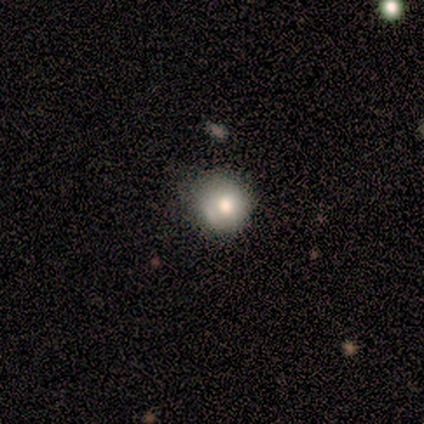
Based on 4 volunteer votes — smooth_or_featured: smooth (p=0.75) [alt: featured or disk p=0.25]
how_rounded: round (p=1.00)
merging: none (p=0.50) [tied with: minor disturbance p=0.50]